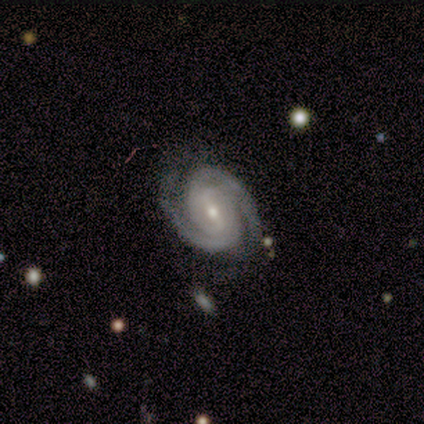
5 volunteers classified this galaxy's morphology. This is clearly a featured or disk galaxy (100%). It is clearly not viewed edge-on (100%). Bar: marginally weak (40%, tied with no). Spiral arm pattern: clearly yes (100%). Spiral arm count: clearly 2 (100%). Spiral winding: clearly tight (100%). Central bulge: clearly small (80%). Merging: clearly none (100%).